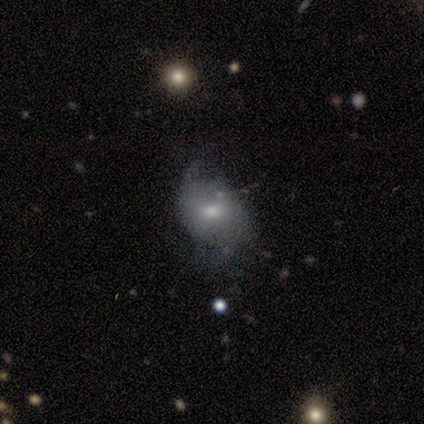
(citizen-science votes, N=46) Volunteers were most divided on "merging": none: 43%, minor disturbance: 38%, major disturbance: 14%, merger: 5%. Remaining: edge-on disk — no (97%); bar — no (71%); smooth or featured — featured or disk (70%); bulge size — moderate (65%); spiral arms — yes (61%); spiral arm count — 2 (58%); spiral winding — medium (47%).